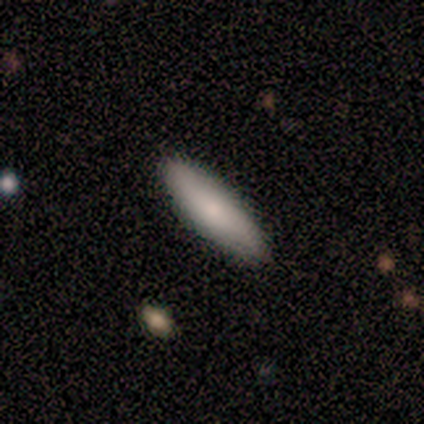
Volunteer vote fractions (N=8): Smooth or featured: smooth — 62% (featured or disk — 25%)
How rounded: cigar-shaped — 80% (in between — 20%)
Merging: none — 57% (minor disturbance — 43%)